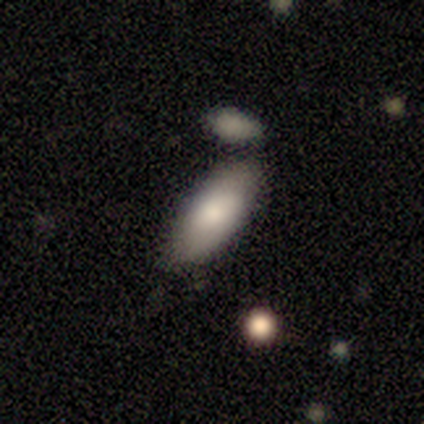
Morphology: type=smooth (85%); roundness=in between (91%); merging=none (78%).